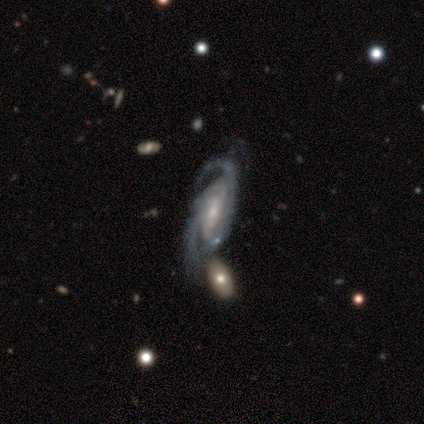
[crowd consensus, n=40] A featured or disk galaxy (98%) with no bar (39%), 2 (61%) tight (61%) spiral arms (100%) and a small central bulge (76%).

Vote fractions:
- Smooth or featured? featured or disk: 98% / star or artifact: 2% / smooth: 0%
- Edge-on disk? no: 97% / yes: 3%
- Bar? no: 39% / weak: 34% / strong: 26%
- Spiral arms? yes: 100% / no: 0%
- Spiral winding? tight: 61% / medium: 34% / loose: 5%
- Spiral arm count? 2: 61% / can't tell: 24% / 3: 13% / 4: 3% / 1: 0% / more than 4: 0%
- Bulge size? small: 76% / moderate: 18% / large: 5% / dominant: 0% / none: 0%
- Merging? none: 31% / minor disturbance: 23% / merger: 15% / major disturbance: 10%